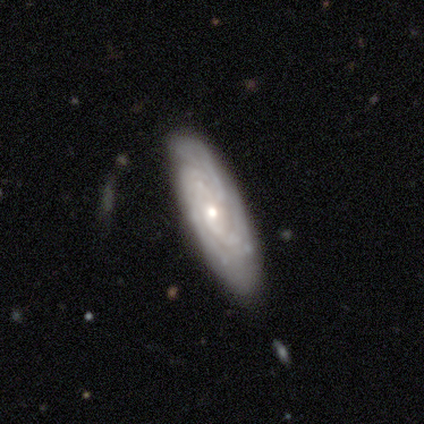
A featured or disk galaxy (60%) with no bar (100%), 3 (67%) tight (100%) spiral arms (100%) and a small central bulge (100%).

Vote fractions:
- Smooth or featured? featured or disk: 60% / smooth: 40% / star or artifact: 0%
- Edge-on disk? no: 100% / yes: 0%
- Bar? no: 100% / strong: 0% / weak: 0%
- Spiral arms? yes: 100% / no: 0%
- Spiral winding? tight: 100% / medium: 0% / loose: 0%
- Spiral arm count? 3: 67% / more than 4: 33% / 1: 0% / 2: 0% / 4: 0% / can't tell: 0%
- Bulge size? small: 100% / dominant: 0% / large: 0% / moderate: 0% / none: 0%
- Merging? none: 60% / minor disturbance: 40% / major disturbance: 0% / merger: 0%